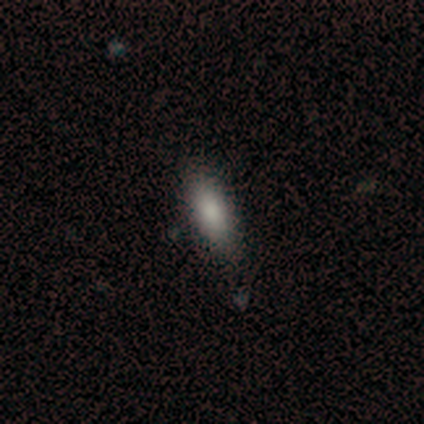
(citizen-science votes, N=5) Smooth or featured: smooth — 100%
How rounded: in between — 60% (cigar-shaped — 40%)
Merging: none — 80% (minor disturbance — 20%)